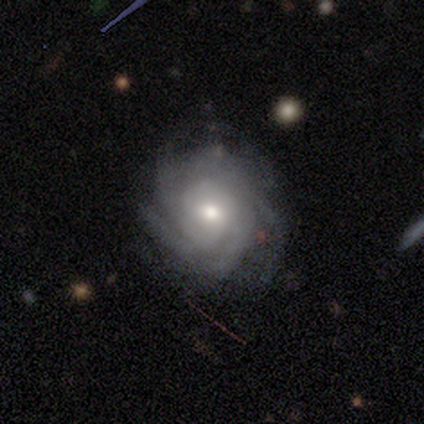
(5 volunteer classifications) Morphology: type=featured or disk (100%); edge-on=no (100%); bar=no (100%); spiral arms=yes (100%); winding=tight (100%); arm count=4 (40%, tied with more than 4); bulge=moderate (80%); merging=none (100%).